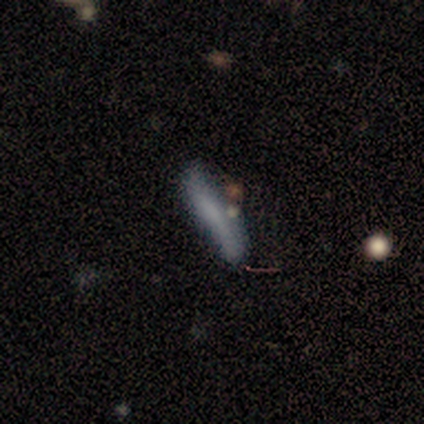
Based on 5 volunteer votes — A smooth galaxy with no disk features (60%) that is cigar-shaped (100%). Merging: none (80%).